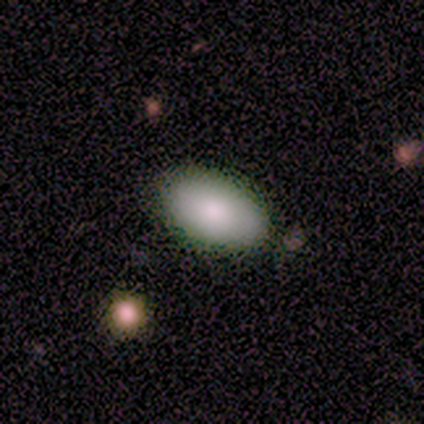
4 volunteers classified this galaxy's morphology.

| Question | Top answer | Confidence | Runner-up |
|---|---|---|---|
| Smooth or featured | smooth | 75% | featured or disk (25%) |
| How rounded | in between | 100% | — |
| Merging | none | 75% | minor disturbance (25%) |